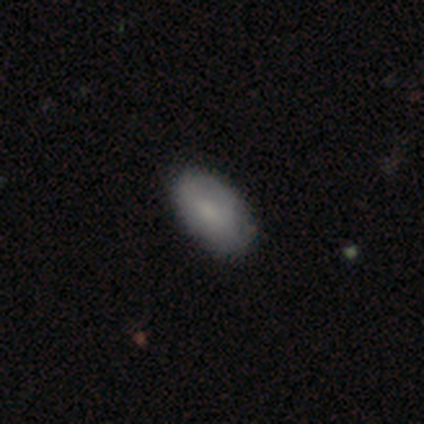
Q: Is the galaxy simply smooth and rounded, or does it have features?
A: smooth — 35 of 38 (92%).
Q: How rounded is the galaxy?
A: in between — 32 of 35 (91%).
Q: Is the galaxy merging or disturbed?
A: none — 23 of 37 (62%).